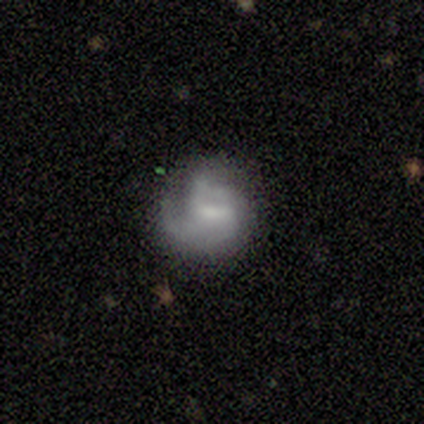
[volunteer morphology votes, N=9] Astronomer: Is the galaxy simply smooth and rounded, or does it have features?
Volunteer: featured or disk — 78%.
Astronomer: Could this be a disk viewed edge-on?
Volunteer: no — 100%.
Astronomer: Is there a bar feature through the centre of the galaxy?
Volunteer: weak — 43% (runner-up: strong, 29%).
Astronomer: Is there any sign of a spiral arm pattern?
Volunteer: yes — 100%.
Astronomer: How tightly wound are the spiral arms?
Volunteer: tight — 57%.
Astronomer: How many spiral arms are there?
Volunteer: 3 — 43% (runner-up: can't tell, 29%).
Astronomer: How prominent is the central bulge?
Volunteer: none — 57%.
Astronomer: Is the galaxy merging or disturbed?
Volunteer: minor disturbance — 56% (runner-up: none, 33%).